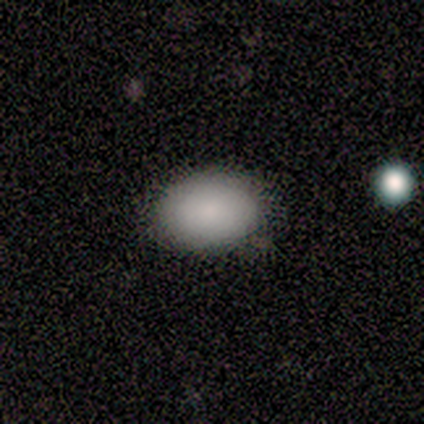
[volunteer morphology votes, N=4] Volunteers were most divided on "merging": none: 75%, minor disturbance: 25%, major disturbance: 0%, merger: 0%. More confident: smooth or featured — smooth (100%); how rounded — in between (100%).